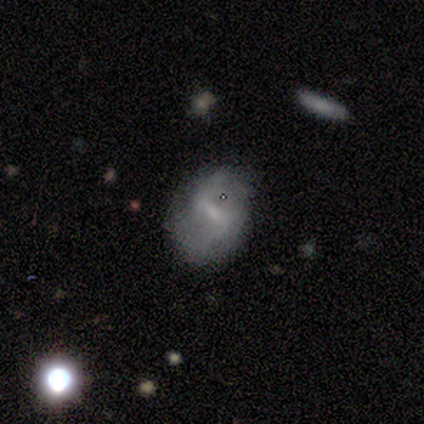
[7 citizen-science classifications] Overall: featured or disk (57%; smooth 29%). Edge-on disk: no (100%). Bar: weak (75%). Spiral arms: yes (100%). Spiral arm count: 2 (100%). Spiral winding: medium (50%, tied with loose). Bulge size: small (100%). Merging: none (83%).